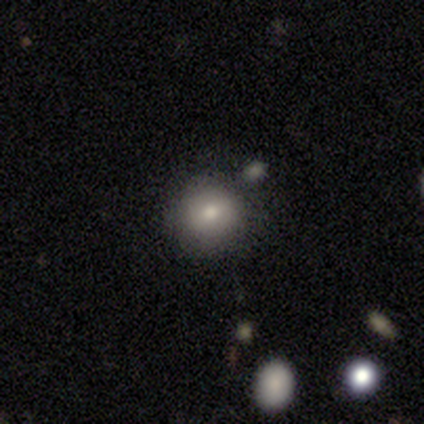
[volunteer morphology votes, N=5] A smooth galaxy with no disk features (100%) that is round (80%). Merging: none (80%).